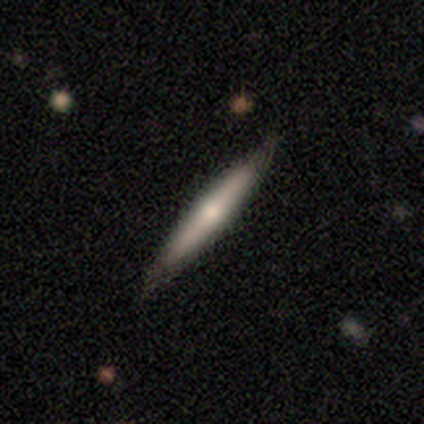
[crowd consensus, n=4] A featured or disk galaxy (75%) viewed edge-on (100%) with a rounded central bulge (67%). Merging: none (75%).